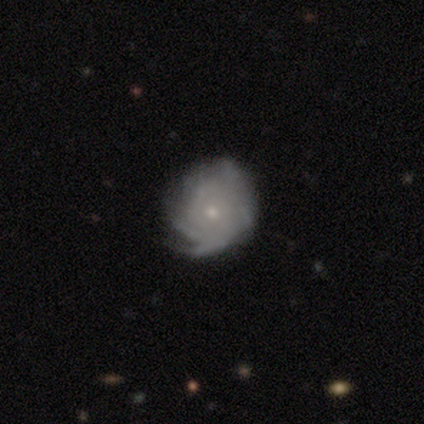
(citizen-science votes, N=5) Morphology: type=featured or disk (80%); edge-on=no (100%); bar=no (100%); spiral arms=yes (100%); winding=tight (75%); arm count=can't tell (75%); bulge=moderate (50%, tied with small); merging=none (40%, tied with minor disturbance).